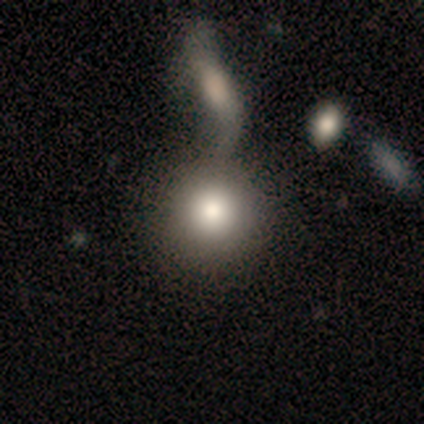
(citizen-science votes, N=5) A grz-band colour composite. It shows a smooth galaxy with no disk features (100%) that is round (100%). Merging: none (40%, tied with merger).